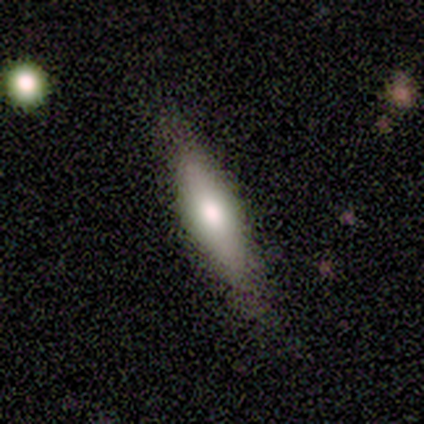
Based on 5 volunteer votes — Morphology: type=smooth (60%); roundness=cigar-shaped (67%); merging=none (100%).